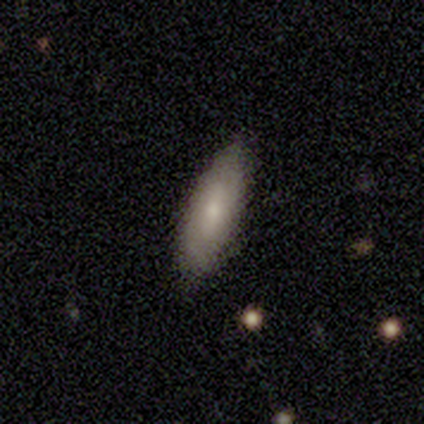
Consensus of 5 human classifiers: Smooth or featured? 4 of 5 (80%) said smooth. How rounded? 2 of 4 (50%, tied with cigar-shaped) said in between. Merging? 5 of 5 (100%) said none.